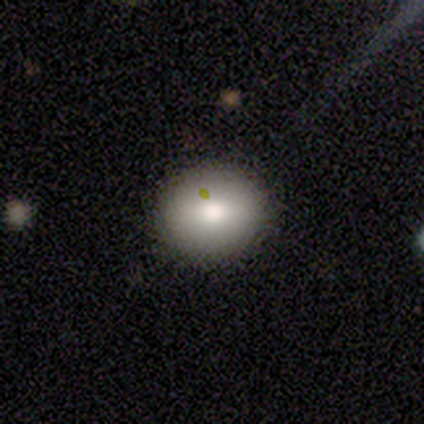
A smooth galaxy with no disk features (60%) that is round (100%). Merging: none (100%).